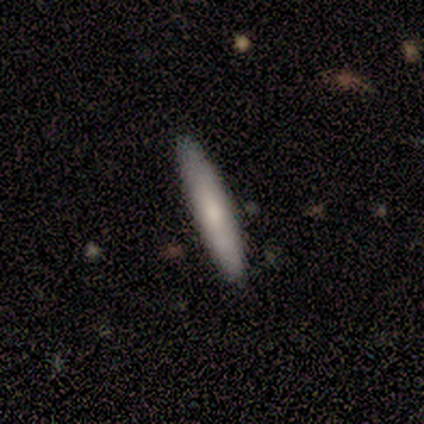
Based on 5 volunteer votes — Volunteers were most divided on "merging": none: 80%, minor disturbance: 20%, major disturbance: 0%, merger: 0%. More confident: smooth or featured — smooth (100%); how rounded — cigar-shaped (100%).